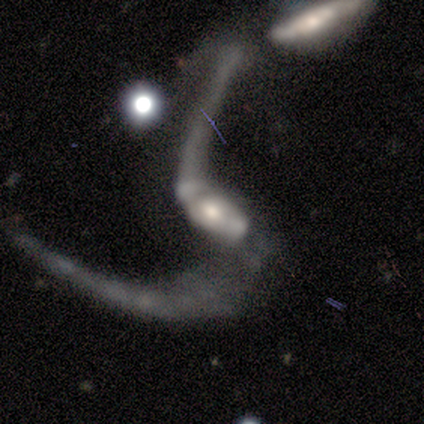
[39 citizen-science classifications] Smooth or featured? featured or disk (82%)
Edge-on disk? no (91%)
Bar? weak (41%)
Spiral arms? yes (86%)
Spiral winding? loose (84%)
Spiral arm count? 2 (80%)
Bulge size? moderate (66%)
Merging? major disturbance (46%)